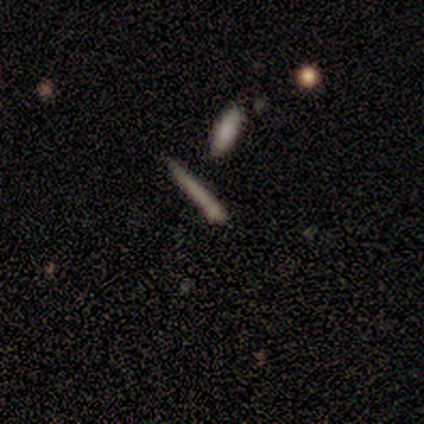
Smooth or featured? smooth (50%)
How rounded? cigar-shaped (100%)
Merging? none (60%)